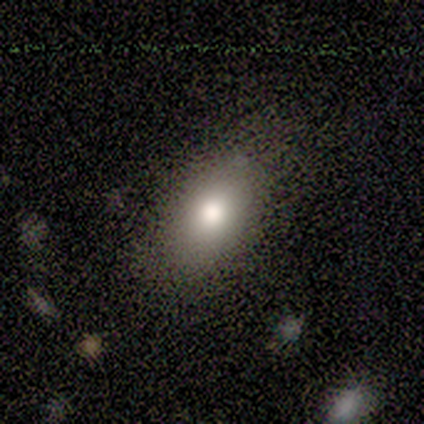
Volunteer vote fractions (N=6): Volunteers were most divided on "smooth or featured": smooth: 67%, featured or disk: 33%, star or artifact: 0%. More confident: how rounded — in between (100%); merging — none (83%).